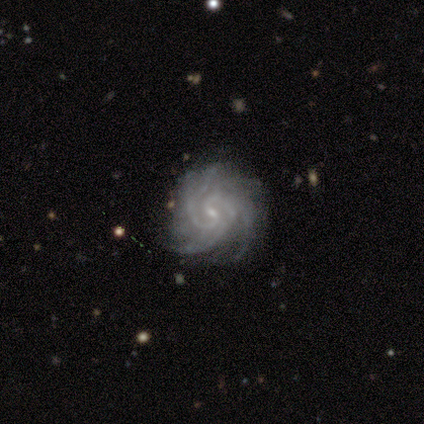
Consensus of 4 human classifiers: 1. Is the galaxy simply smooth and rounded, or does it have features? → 100% featured or disk, 0% smooth, 0% star or artifact.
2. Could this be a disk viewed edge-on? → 100% no, 0% yes.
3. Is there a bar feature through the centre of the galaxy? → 75% weak, 25% strong, 0% no.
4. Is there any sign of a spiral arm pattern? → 100% yes, 0% no.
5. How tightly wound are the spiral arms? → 75% tight, 25% medium, 0% loose.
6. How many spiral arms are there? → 25% 3 (tied), 25% 4 (tied), 25% more than 4 (tied), 25% can't tell (tied), 0% 1, 0% 2.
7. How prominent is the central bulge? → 75% small, 25% none, 0% dominant, 0% large, 0% moderate.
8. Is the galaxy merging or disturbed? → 50% none (tied), 50% minor disturbance (tied), 0% major disturbance, 0% merger.